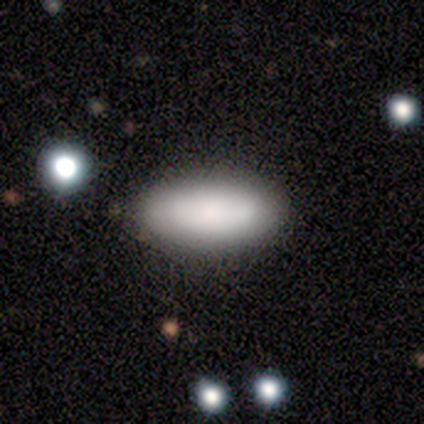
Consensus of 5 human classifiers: smooth 80%, star or artifact 20%, featured or disk 0%. Down the decision tree: how rounded — in between (100%); merging — none (100%).